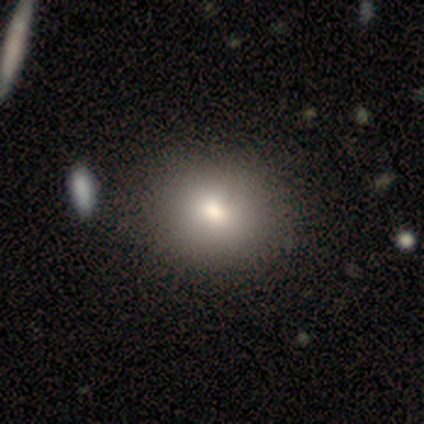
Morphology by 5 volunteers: A smooth galaxy with no disk features (40%, tied with featured or disk) that is round (100%). Merging: none (100%).